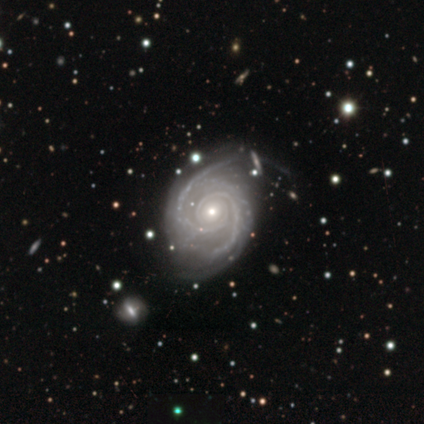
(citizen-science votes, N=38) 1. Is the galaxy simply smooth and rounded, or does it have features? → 100% featured or disk, 0% smooth, 0% star or artifact.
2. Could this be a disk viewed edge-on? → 100% no, 0% yes.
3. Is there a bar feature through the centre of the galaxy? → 55% no, 34% weak, 11% strong.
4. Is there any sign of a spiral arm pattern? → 100% yes, 0% no.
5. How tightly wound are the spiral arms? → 50% medium, 47% tight, 3% loose.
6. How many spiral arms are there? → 89% 2, 5% 3, 3% 1, 3% can't tell, 0% 4, 0% more than 4.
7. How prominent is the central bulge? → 50% small, 47% moderate, 3% large, 0% dominant, 0% none.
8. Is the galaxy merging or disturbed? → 71% none, 21% minor disturbance, 8% major disturbance, 0% merger.